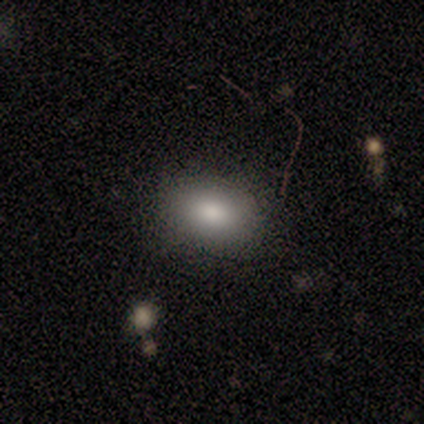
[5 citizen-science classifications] Smooth or featured: smooth — 80% (star or artifact — 20%)
How rounded: in between — 100%
Merging: none — 75% (minor disturbance — 25%)